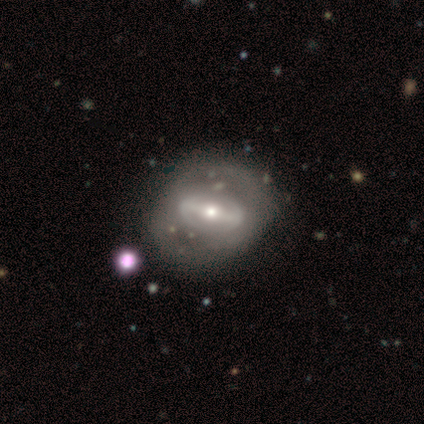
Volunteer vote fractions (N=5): A featured or disk galaxy (40%, tied with star or artifact) with a strong bar (100%), 2 (100%) medium (100%) spiral arms (50%, tied with no) and a moderate central bulge (100%). Merging: none (67%).